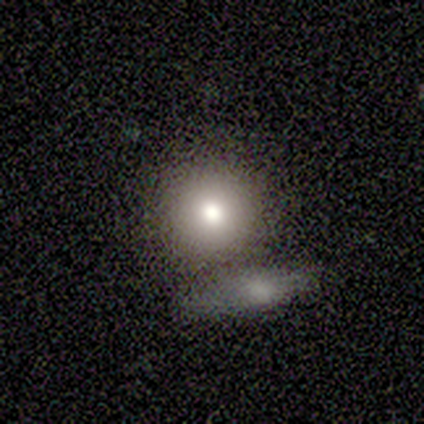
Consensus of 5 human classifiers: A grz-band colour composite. It shows a smooth galaxy with no disk features (80%) that is round (75%). Merging: none (50%).